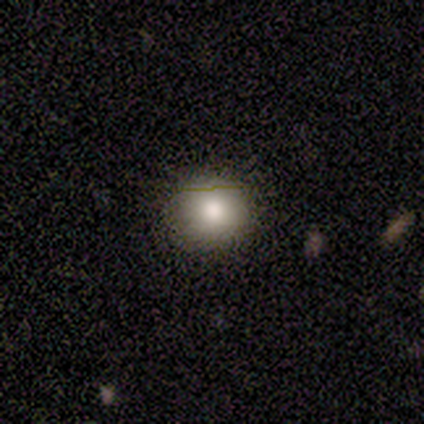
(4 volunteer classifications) This appears to be a smooth galaxy with no disk features (100%) that is round (100%). Merging: none (100%).